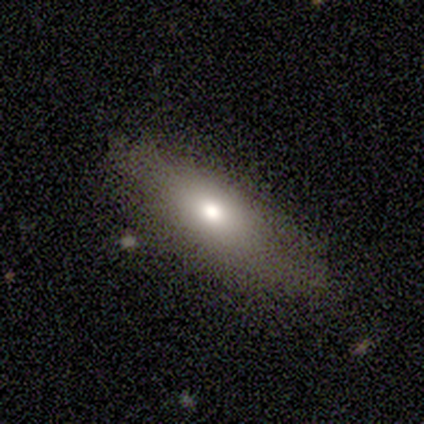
This appears to be a smooth galaxy with no disk features (67%) that is in between round and cigar-shaped (88%). Merging: none (80%).